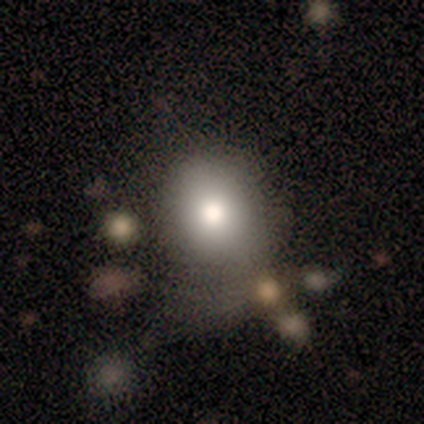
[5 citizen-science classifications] Smooth or featured? 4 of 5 (80%) said smooth. How rounded? 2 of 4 (50%, tied with in between) said round. Merging? 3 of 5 (60%) said none.